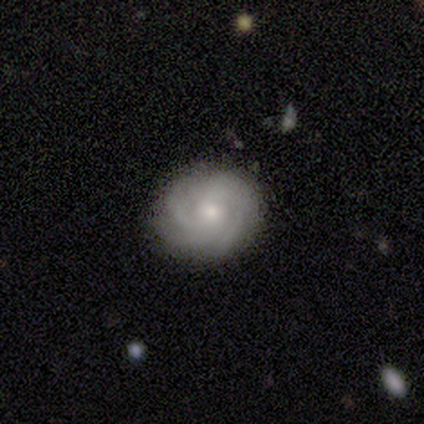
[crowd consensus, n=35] Volunteers were most divided on "spiral arm count" (2-way tie): 3: 41%, can't tell: 41%, 4: 14%, 2: 5%, 1: 0%, more than 4: 0%. More confident: edge-on disk — no (100%); spiral arms — yes (100%); bar — no (82%); merging — none (82%); spiral winding — tight (68%); bulge size — small (64%); smooth or featured — featured or disk (63%).